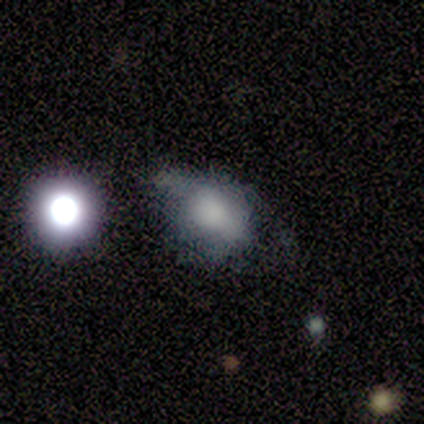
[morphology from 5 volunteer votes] Overall: smooth (40%, tied with featured or disk). How rounded: in between (100%). Merging: minor disturbance (50%; none 25%).